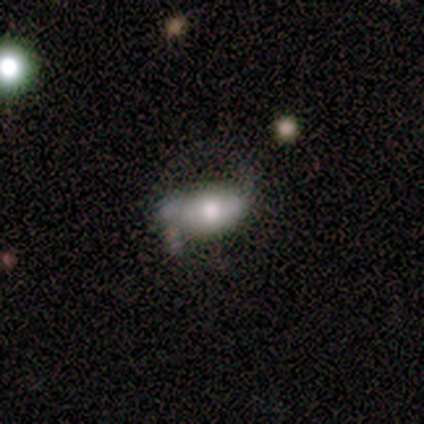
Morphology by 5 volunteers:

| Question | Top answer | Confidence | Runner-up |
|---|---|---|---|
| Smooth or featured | smooth | 60% | featured or disk (20%) |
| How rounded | in between | 67% | round (33%) |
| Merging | none | 25% | tied: minor disturbance (25%), major disturbance (25%), merger (25%) |